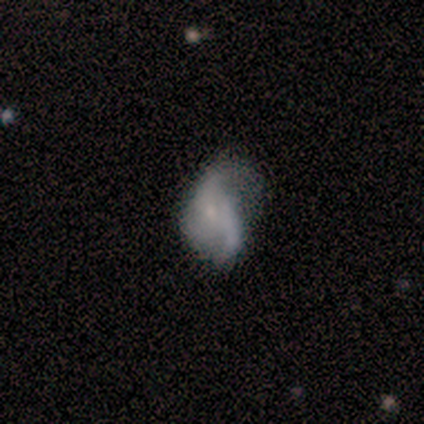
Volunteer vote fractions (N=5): A featured or disk galaxy (80%) with no bar (75%), 2 (50%, tied with 3) loose (100%) spiral arms (50%, tied with no) and a small central bulge (75%). Merging: minor disturbance (40%, tied with major disturbance).